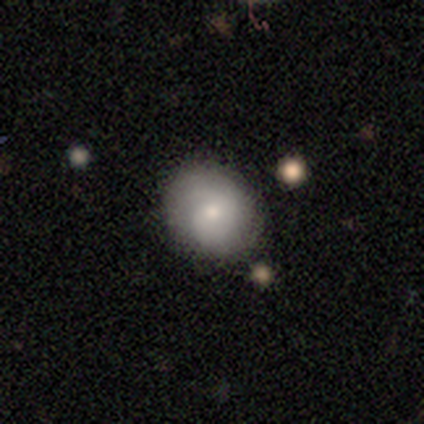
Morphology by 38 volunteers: smooth-or-featured: smooth: 61% | featured or disk: 34% | star or artifact: 5%
  how-rounded: round: 78% | in between: 22% | cigar-shaped: 0%
  merging: none: 81% | minor disturbance: 17% | major disturbance: 3% | merger: 0%